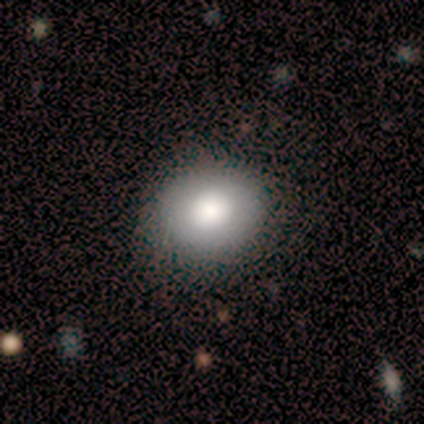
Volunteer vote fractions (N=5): smooth_or_featured: smooth (p=1.00)
how_rounded: round (p=0.80) [alt: in between p=0.20]
merging: none (p=1.00)